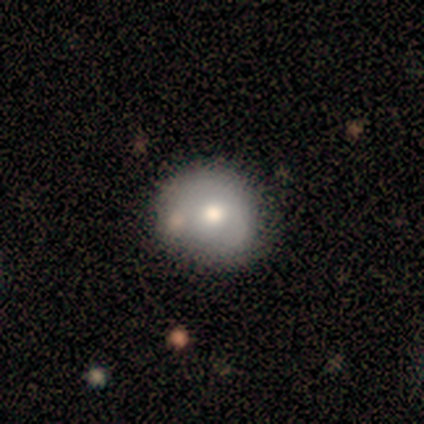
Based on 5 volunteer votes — Morphology: type=smooth (80%); roundness=round (100%); merging=minor disturbance (40%, tied with merger).